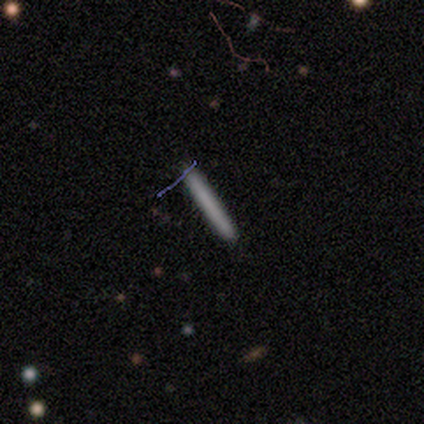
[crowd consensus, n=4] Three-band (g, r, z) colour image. It shows a featured or disk galaxy (50%) viewed edge-on (100%) with no central bulge (100%). Merging: none (67%).